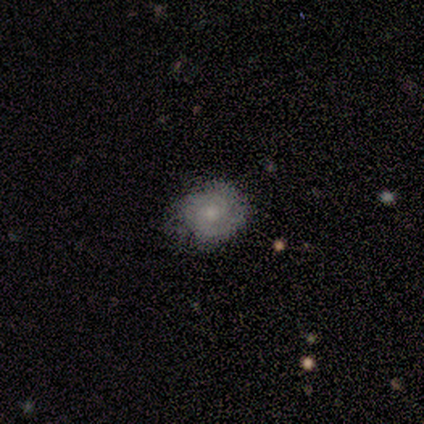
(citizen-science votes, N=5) Smooth or featured?
  - featured or disk: 60% *
  - smooth: 40%
  - star or artifact: 0%
Edge-on disk?
  - no: 100% *
  - yes: 0%
Bar?
  - no: 100% *
  - strong: 0%
  - weak: 0%
Spiral arms?
  - yes: 100% *
  - no: 0%
Spiral winding?
  - tight: 67% *
  - medium: 33%
  - loose: 0%
Spiral arm count?
  - 2: 100% *
  - 1: 0%
  - 3: 0%
  - 4: 0%
  - more than 4: 0%
  - can't tell: 0%
Bulge size?
  - small: 100% *
  - dominant: 0%
  - large: 0%
  - moderate: 0%
  - none: 0%
Merging?
  - none: 80% *
  - minor disturbance: 20%
  - major disturbance: 0%
  - merger: 0%